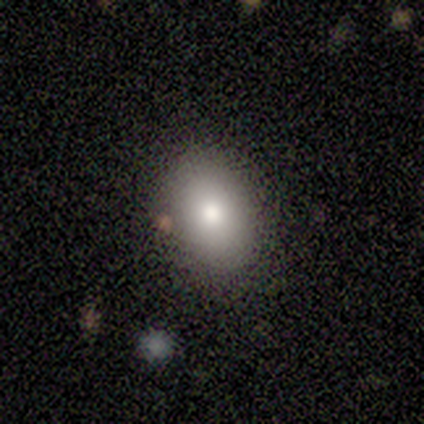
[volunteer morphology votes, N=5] Smooth or featured: smooth — 80% (featured or disk — 20%)
How rounded: in between — 75% (round — 25%)
Merging: none — 100%